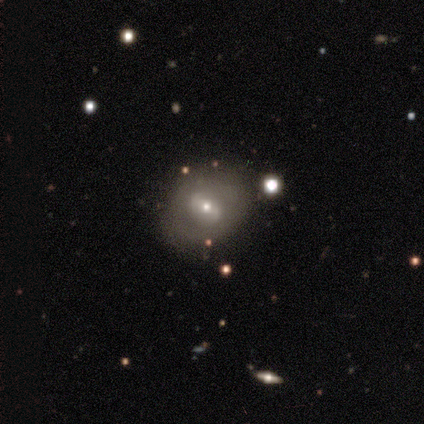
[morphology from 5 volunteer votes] Smooth or featured? 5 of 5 (100%) said featured or disk. Edge-on disk? 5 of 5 (100%) said no. Bar? 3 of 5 (60%) said weak. Spiral arms? 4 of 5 (80%) said no. Bulge size? 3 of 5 (60%) said small. Merging? 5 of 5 (100%) said none.